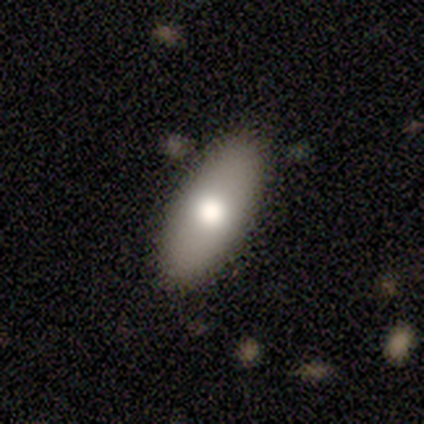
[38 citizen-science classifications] Volunteers were most divided on "smooth or featured": smooth: 71%, featured or disk: 21%, star or artifact: 8%. More confident: how rounded — in between (89%); merging — none (89%).